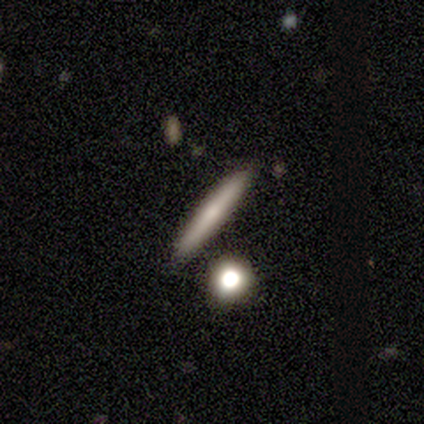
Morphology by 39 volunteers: smooth-or-featured: smooth: 46% (tied) | featured or disk: 46% (tied) | star or artifact: 8%
  how-rounded: cigar-shaped: 94% | in between: 6% | round: 0%
  merging: none: 92% | minor disturbance: 6% | merger: 3% | major disturbance: 0%